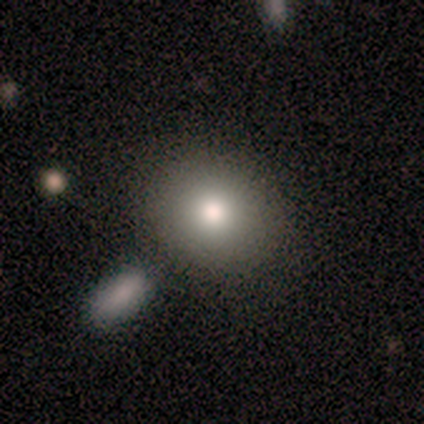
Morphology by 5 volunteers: Smooth or featured: smooth — 80% (featured or disk — 20%)
How rounded: round — 50% (tied with in between — 50%)
Merging: none — 60% (major disturbance — 20%)